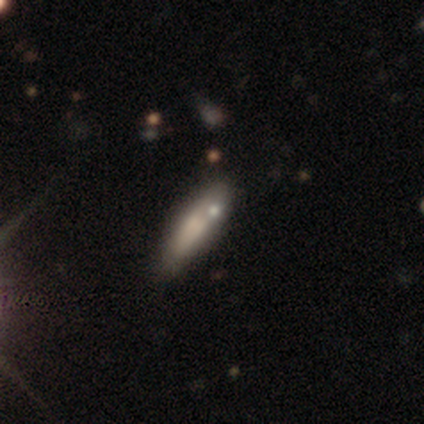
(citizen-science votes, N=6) Smooth or featured: smooth — 50% (featured or disk — 33%)
How rounded: cigar-shaped — 100%
Merging: none — 40% (tied with merger — 40%)